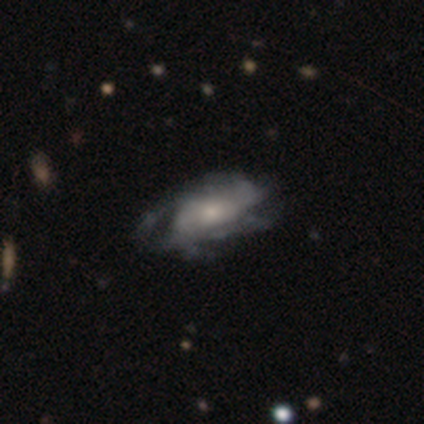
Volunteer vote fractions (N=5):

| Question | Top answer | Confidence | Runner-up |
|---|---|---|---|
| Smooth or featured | featured or disk | 100% | — |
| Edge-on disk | no | 100% | — |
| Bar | no | 100% | — |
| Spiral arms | no | 60% | yes (40%) |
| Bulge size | moderate | 60% | large (20%) |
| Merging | minor disturbance | 40% | tied: major disturbance (40%) |